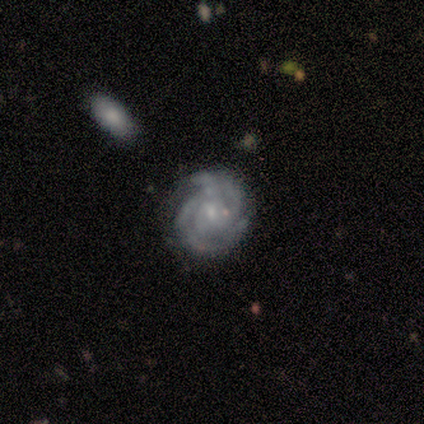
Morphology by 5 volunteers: Volunteers were most divided on "merging": none: 60%, minor disturbance: 40%, major disturbance: 0%, merger: 0%. More confident: smooth or featured — featured or disk (100%); edge-on disk — no (100%); bar — no (100%); spiral arms — yes (100%); spiral winding — tight (80%); bulge size — small (80%); spiral arm count — 4 (60%).